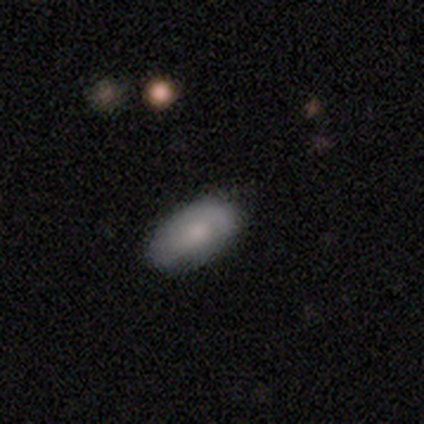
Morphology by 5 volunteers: This appears to be a smooth galaxy with no disk features (60%) that is in between round and cigar-shaped (100%). Merging: none (60%).